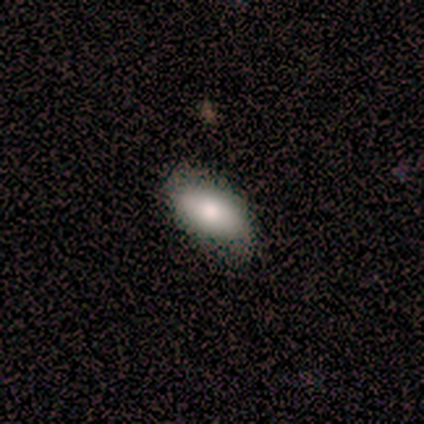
A featured or disk galaxy (60%) viewed edge-on (67%) with no central bulge (50%, tied with rounded).

Vote fractions:
- Smooth or featured? featured or disk: 60% / smooth: 40% / star or artifact: 0%
- Edge-on disk? yes: 67% / no: 33%
- Edge-on bulge? none: 50% (tied) / rounded: 50% (tied) / boxy: 0%
- Merging? none: 100% / minor disturbance: 0% / major disturbance: 0% / merger: 0%